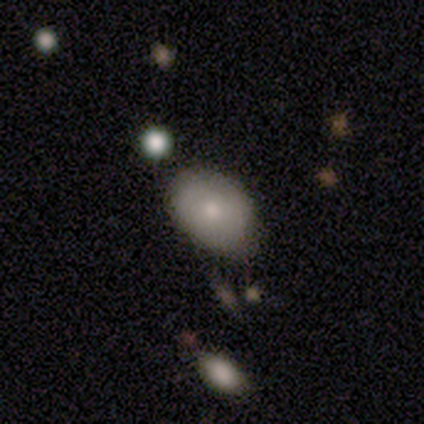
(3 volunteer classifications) This appears to be a featured or disk galaxy (67%) viewed edge-on (50%, tied with no) with a rounded central bulge (100%). Merging: none (67%).